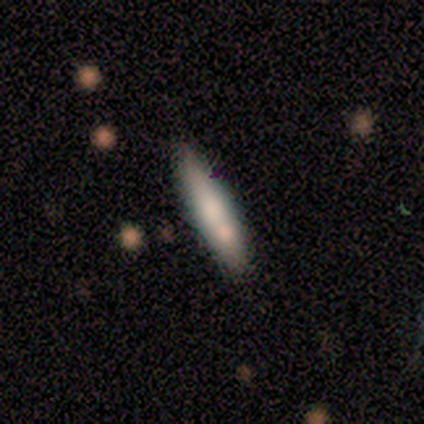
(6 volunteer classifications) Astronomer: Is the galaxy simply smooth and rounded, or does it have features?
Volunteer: smooth — 67%.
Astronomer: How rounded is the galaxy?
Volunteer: cigar-shaped — 100%.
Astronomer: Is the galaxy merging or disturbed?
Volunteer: none — 83%.